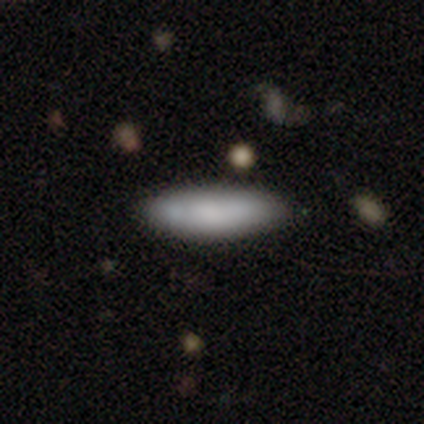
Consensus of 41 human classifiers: Volunteers were most divided on "how rounded": cigar-shaped: 58%, in between: 42%, round: 0%. More confident: smooth or featured — smooth (93%); merging — none (93%).